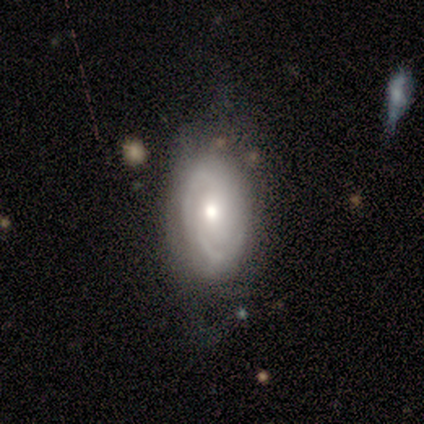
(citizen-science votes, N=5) Smooth or featured?
  - featured or disk: 80% *
  - smooth: 20%
  - star or artifact: 0%
Edge-on disk?
  - no: 100% *
  - yes: 0%
Bar?
  - no: 75% *
  - strong: 25%
  - weak: 0%
Spiral arms?
  - yes: 100% *
  - no: 0%
Spiral winding?
  - tight: 75% *
  - medium: 25%
  - loose: 0%
Spiral arm count?
  - 2: 100% *
  - 1: 0%
  - 3: 0%
  - 4: 0%
  - more than 4: 0%
  - can't tell: 0%
Bulge size?
  - moderate: 75% *
  - large: 25%
  - dominant: 0%
  - small: 0%
  - none: 0%
Merging?
  - none: 60% *
  - minor disturbance: 40%
  - major disturbance: 0%
  - merger: 0%